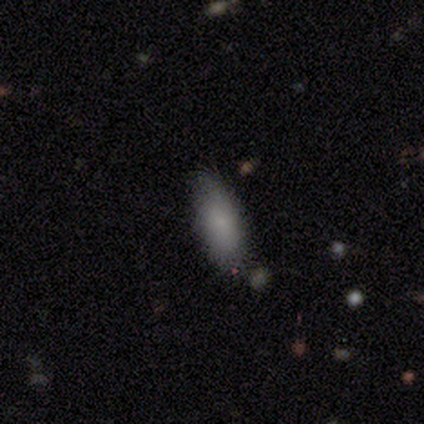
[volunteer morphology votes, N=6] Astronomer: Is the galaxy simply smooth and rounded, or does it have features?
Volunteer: smooth — 83%.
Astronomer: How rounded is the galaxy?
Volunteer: in between — 100%.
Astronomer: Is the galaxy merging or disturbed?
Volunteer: none — 60%.